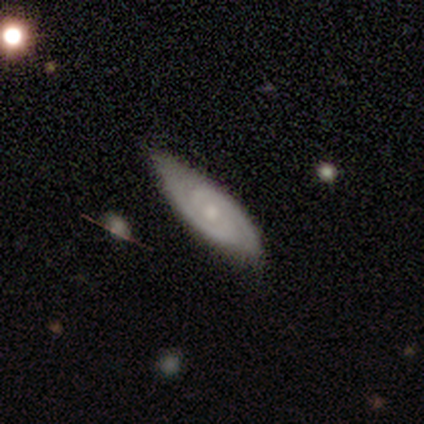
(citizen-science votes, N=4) This appears to be a featured or disk galaxy (75%) with no bar (100%), 2 (100%) medium (100%) spiral arms (100%) and a moderate central bulge (100%). Merging: none (67%).